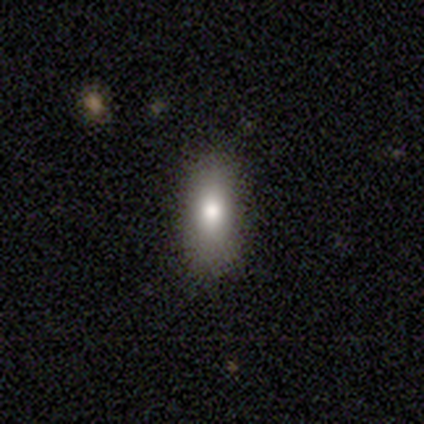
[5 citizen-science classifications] This is clearly a smooth galaxy (100%). How rounded: marginally in between (40%, tied with cigar-shaped). Merging: clearly none (100%).